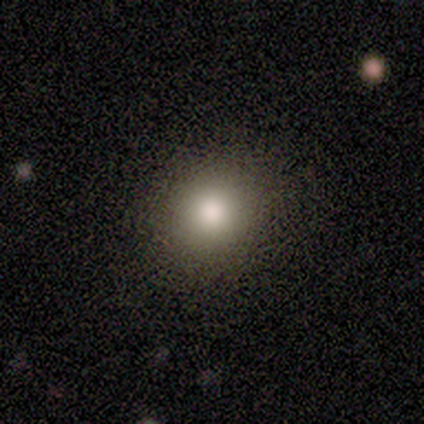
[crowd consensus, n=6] Smooth or featured?
  - smooth: 83% *
  - star or artifact: 17%
  - featured or disk: 0%
How rounded?
  - round: 100% *
  - in between: 0%
  - cigar-shaped: 0%
Merging?
  - none: 80% *
  - minor disturbance: 20%
  - major disturbance: 0%
  - merger: 0%